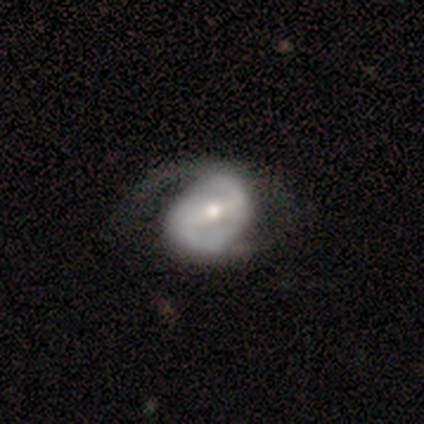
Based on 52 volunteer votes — smooth-or-featured: featured or disk: 92% | smooth: 4% | star or artifact: 4%
  disk-edge-on: no: 98% | yes: 2%
    bar: strong: 51% | weak: 40% | no: 9%
    has-spiral-arms: yes: 94% | no: 6%
      spiral-winding: loose: 45% | medium: 41% | tight: 14%
      spiral-arm-count: 2: 89% | 1: 7% | 4: 2% | can't tell: 2% | 3: 0% | more than 4: 0%
    bulge-size: moderate: 60% | small: 38% | large: 2% | dominant: 0% | none: 0%
  merging: none: 40% | minor disturbance: 34% | major disturbance: 26% | merger: 0%